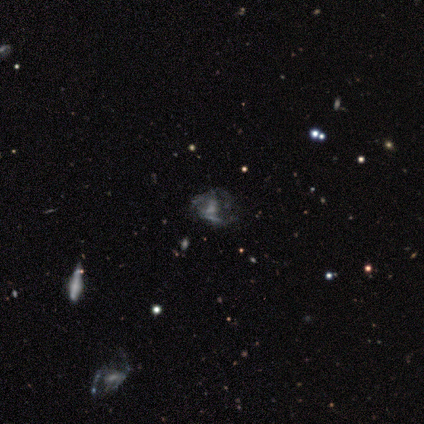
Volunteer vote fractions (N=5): This is likely a featured or disk galaxy (60%). It is clearly not viewed edge-on (100%). Bar: likely no (67%). Spiral arm pattern: likely no (67%). Central bulge: marginally large (33%, tied with small and none). Merging: likely minor disturbance (75%).